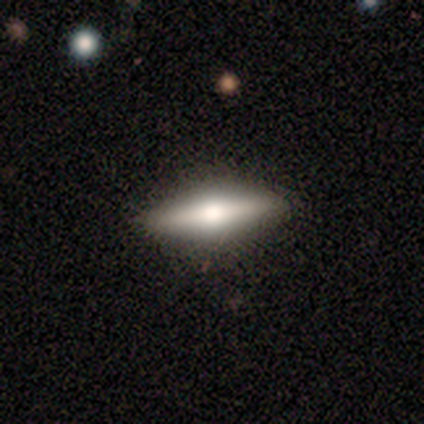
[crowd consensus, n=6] A smooth galaxy with no disk features (67%) that is cigar-shaped (75%).

Vote fractions:
- Smooth or featured? smooth: 67% / featured or disk: 33% / star or artifact: 0%
- How rounded? cigar-shaped: 75% / in between: 25% / round: 0%
- Merging? none: 100% / minor disturbance: 0% / major disturbance: 0% / merger: 0%